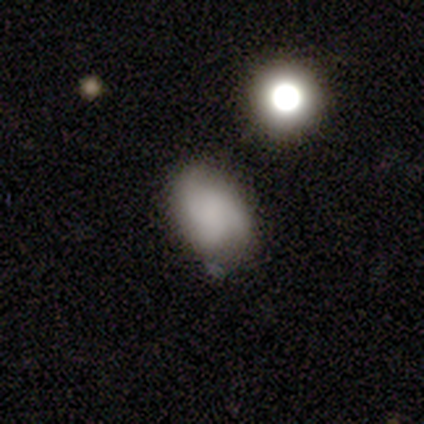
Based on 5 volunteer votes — smooth-or-featured: smooth: 80% | featured or disk: 20% | star or artifact: 0%
  how-rounded: in between: 100% | round: 0% | cigar-shaped: 0%
  merging: none: 100% | minor disturbance: 0% | major disturbance: 0% | merger: 0%